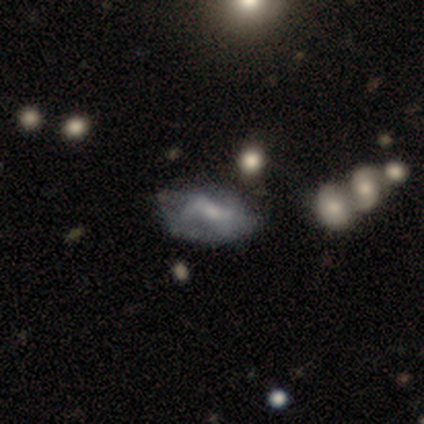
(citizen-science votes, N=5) smooth-or-featured: star or artifact: 60% | smooth: 40% | featured or disk: 0%